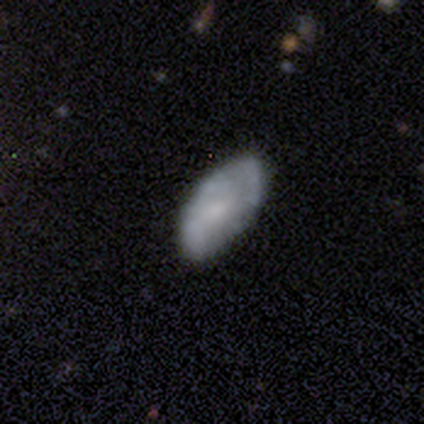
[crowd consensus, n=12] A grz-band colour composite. It shows a smooth galaxy with no disk features (50%) that is in between round and cigar-shaped (100%). Merging: none (60%).